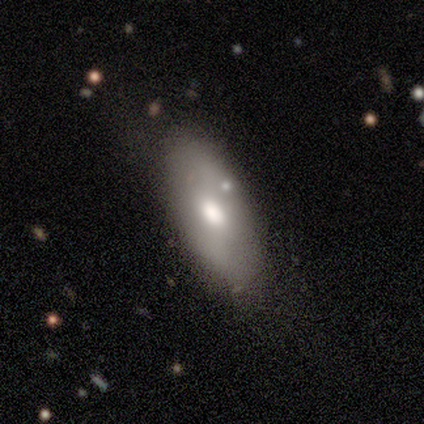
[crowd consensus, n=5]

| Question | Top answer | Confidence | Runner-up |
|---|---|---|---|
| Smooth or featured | smooth | 80% | star or artifact (20%) |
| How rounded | in between | 100% | — |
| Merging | none | 75% | minor disturbance (25%) |